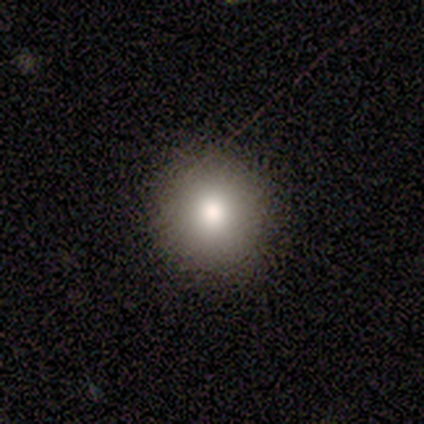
smooth-or-featured: smooth: 80% | star or artifact: 20% | featured or disk: 0%
  how-rounded: round: 100% | in between: 0% | cigar-shaped: 0%
  merging: none: 100% | minor disturbance: 0% | major disturbance: 0% | merger: 0%